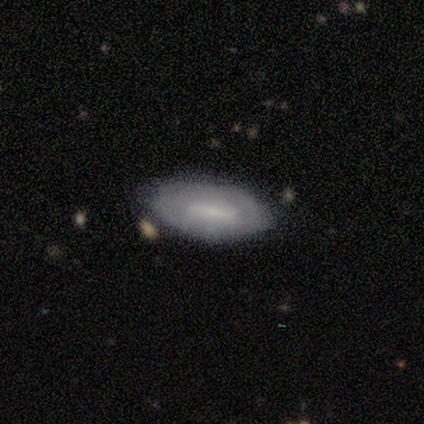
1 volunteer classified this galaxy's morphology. Smooth or featured? smooth (100%)
How rounded? in between (100%)
Merging? none (100%)